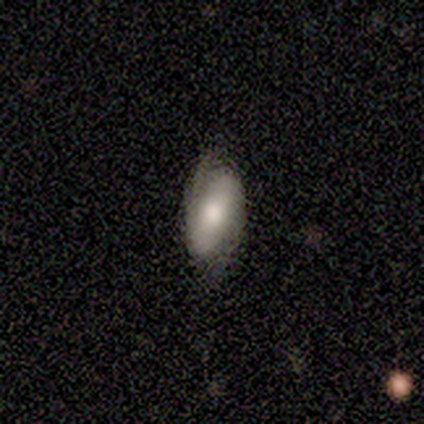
smooth-or-featured: smooth: 100% | featured or disk: 0% | star or artifact: 0%
  how-rounded: in between: 100% | round: 0% | cigar-shaped: 0%
  merging: none: 40% (tied) | minor disturbance: 40% (tied) | major disturbance: 20% | merger: 0%